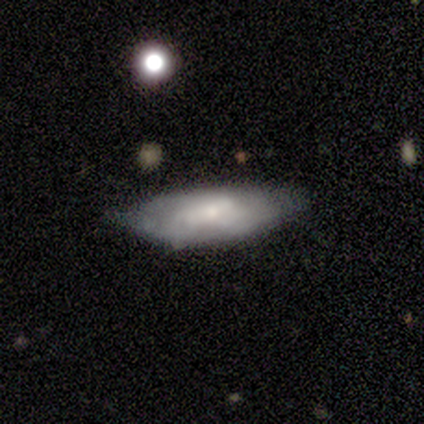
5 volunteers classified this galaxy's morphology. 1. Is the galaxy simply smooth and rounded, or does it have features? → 80% smooth, 20% featured or disk, 0% star or artifact.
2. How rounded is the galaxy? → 100% in between, 0% round, 0% cigar-shaped.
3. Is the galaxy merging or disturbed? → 60% minor disturbance, 40% none, 0% major disturbance, 0% merger.